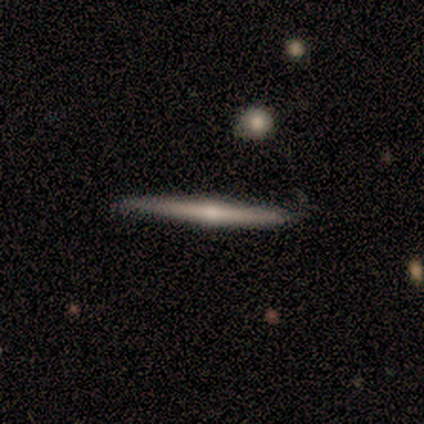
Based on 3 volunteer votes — Morphology: type=featured or disk (100%); edge-on=yes (67%); edge-on bulge=none (50%, tied with rounded); merging=none (100%).